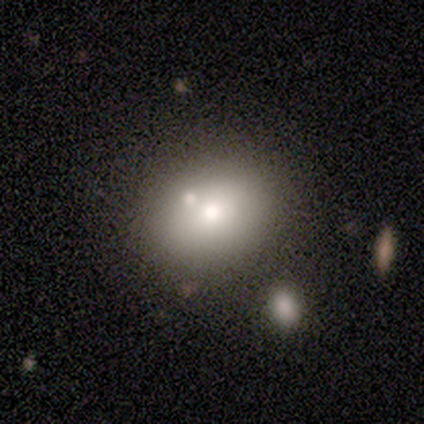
Morphology: type=smooth (90%); roundness=round (51%); merging=none (62%).